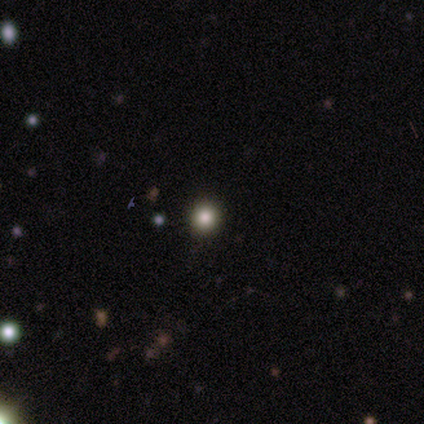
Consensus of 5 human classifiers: smooth-or-featured: smooth: 60% | featured or disk: 20% | star or artifact: 20%
  how-rounded: round: 100% | in between: 0% | cigar-shaped: 0%
  merging: none: 100% | minor disturbance: 0% | major disturbance: 0% | merger: 0%